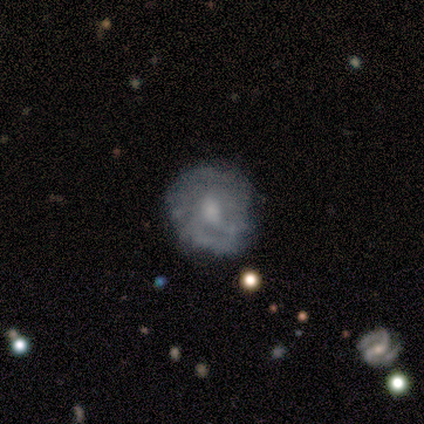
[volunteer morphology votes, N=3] Smooth or featured? featured or disk (67%)
Edge-on disk? no (100%)
Bar? weak (50%, tied with no)
Spiral arms? no (100%)
Bulge size? moderate (50%, tied with small)
Merging? none (33%, tied with minor disturbance and major disturbance)